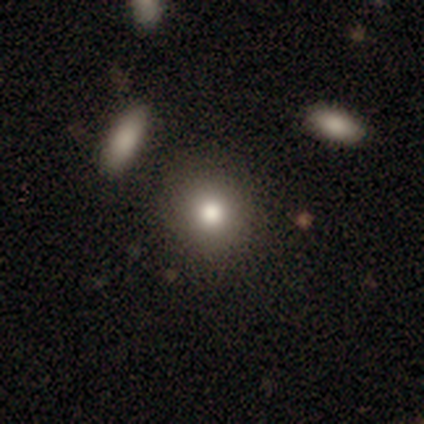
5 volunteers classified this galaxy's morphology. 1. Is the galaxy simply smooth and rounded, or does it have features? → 80% smooth, 20% featured or disk, 0% star or artifact.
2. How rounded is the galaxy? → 100% round, 0% in between, 0% cigar-shaped.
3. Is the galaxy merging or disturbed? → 60% none, 20% minor disturbance, 20% merger, 0% major disturbance.